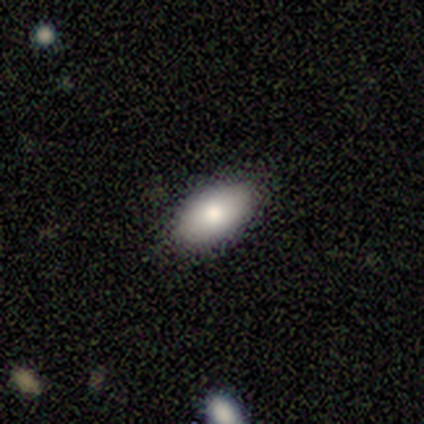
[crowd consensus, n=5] Smooth or featured?
  - smooth: 80% *
  - featured or disk: 20%
  - star or artifact: 0%
How rounded?
  - in between: 100% *
  - round: 0%
  - cigar-shaped: 0%
Merging?
  - none: 100% *
  - minor disturbance: 0%
  - major disturbance: 0%
  - merger: 0%